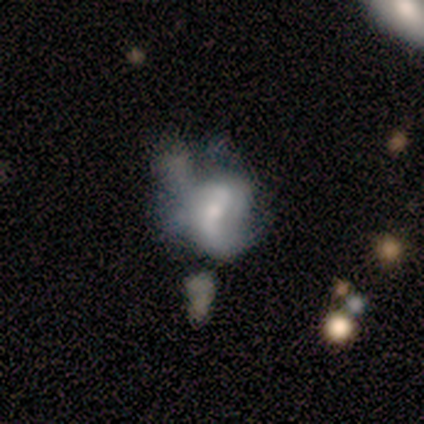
featured or disk 66%, smooth 27%, star or artifact 7%. Down the decision tree: edge-on disk — no (98%); bar — no (47%); spiral arms — yes (63%); spiral arm count — 2 (54%); spiral winding — loose (62%); bulge size — small (37%); merging — major disturbance (49%).